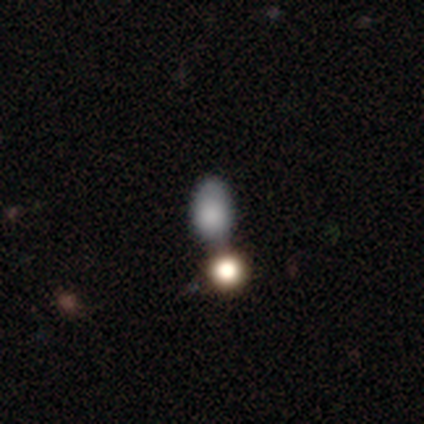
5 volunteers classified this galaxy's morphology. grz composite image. It shows a smooth galaxy with no disk features (40%, tied with star or artifact) that is in between round and cigar-shaped (100%). Merging: none (33%, tied with major disturbance and merger).